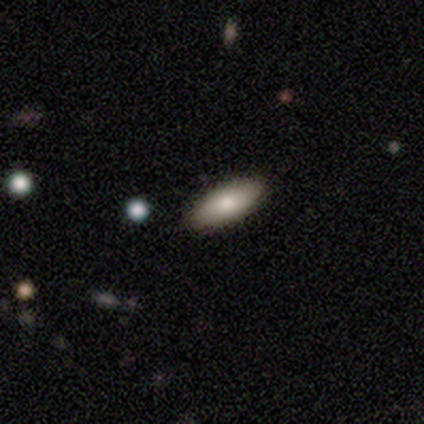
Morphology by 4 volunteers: Smooth or featured? smooth (100%)
How rounded? in between (100%)
Merging? none (100%)